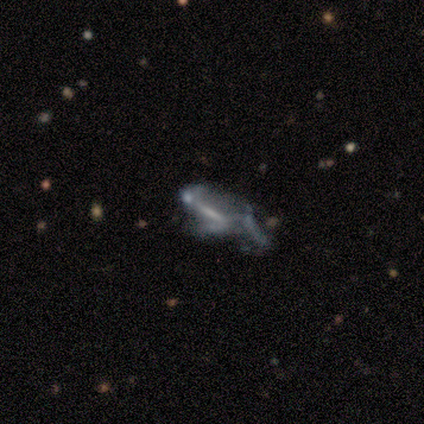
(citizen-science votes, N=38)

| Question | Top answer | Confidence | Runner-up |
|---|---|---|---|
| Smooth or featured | featured or disk | 68% | smooth (16%) |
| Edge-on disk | no | 85% | yes (15%) |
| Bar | strong | 59% | no (41%) |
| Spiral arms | no | 64% | yes (36%) |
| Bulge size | none | 50% | small (27%) |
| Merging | merger | 41% | major disturbance (34%) |